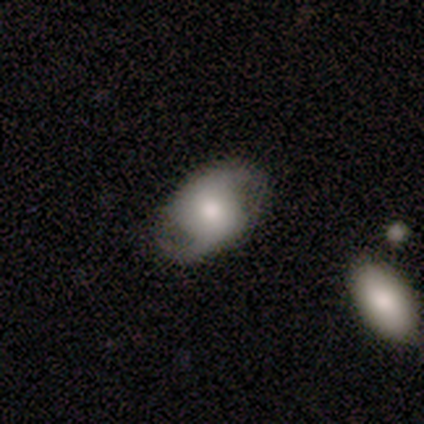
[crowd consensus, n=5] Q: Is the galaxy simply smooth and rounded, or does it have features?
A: featured or disk — 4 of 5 (80%).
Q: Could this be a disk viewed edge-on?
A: no — 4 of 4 (100%).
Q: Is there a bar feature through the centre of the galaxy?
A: weak — 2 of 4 (50%, tied with no).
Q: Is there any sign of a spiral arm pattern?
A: yes — 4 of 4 (100%).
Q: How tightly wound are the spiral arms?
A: medium — 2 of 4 (50%, tied with loose).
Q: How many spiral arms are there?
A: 2 — 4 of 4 (100%).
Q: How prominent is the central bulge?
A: moderate — 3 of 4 (75%).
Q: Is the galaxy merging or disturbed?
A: none — 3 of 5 (60%).